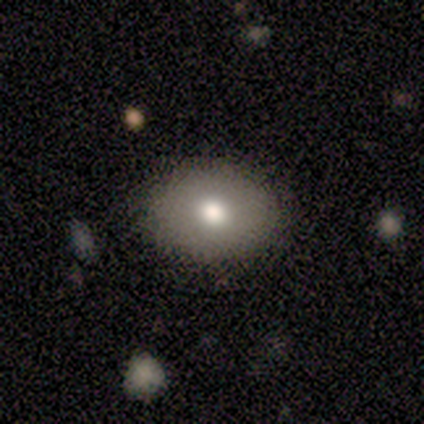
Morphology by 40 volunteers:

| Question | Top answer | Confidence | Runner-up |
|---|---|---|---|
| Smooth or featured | smooth | 75% | star or artifact (15%) |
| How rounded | in between | 57% | round (43%) |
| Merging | none | 91% | major disturbance (6%) |